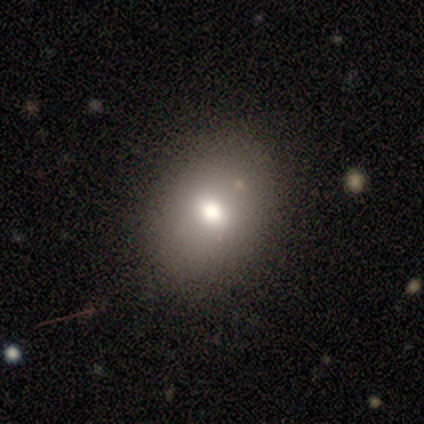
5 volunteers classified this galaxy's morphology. Q: Smooth or featured?
A: smooth (80%); runner-up: featured or disk (20%)
Q: How rounded?
A: round (50%); tied with: in between (50%)
Q: Merging?
A: none (100%)